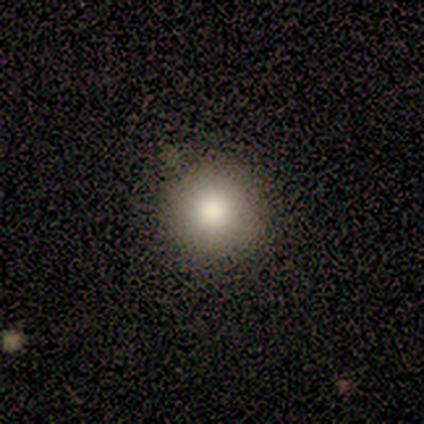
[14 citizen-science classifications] Volunteers were most divided on "smooth or featured": smooth: 79%, featured or disk: 14%, star or artifact: 7%. More confident: how rounded — round (100%); merging — none (100%).